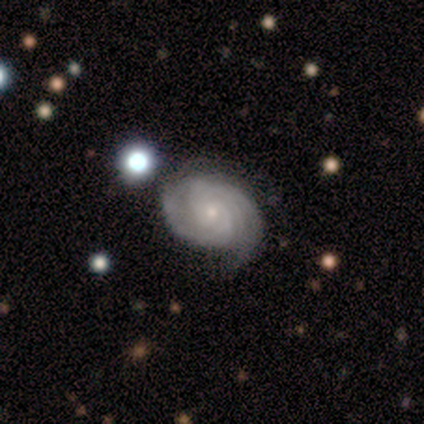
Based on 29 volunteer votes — This appears to be a featured or disk galaxy (69%) with no bar (89%), 2 (32%, tied with can't tell) tight (68%) spiral arms (100%) and a small central bulge (79%). Merging: none (74%).